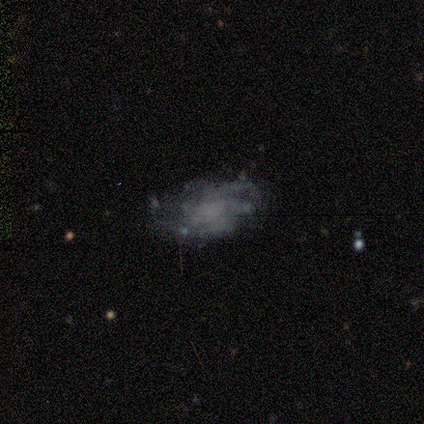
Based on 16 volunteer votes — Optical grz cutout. It shows a featured or disk galaxy (88%) with no bar (62%), tight (75%) spiral arms (62%) and no central bulge (100%). Merging: none (44%).